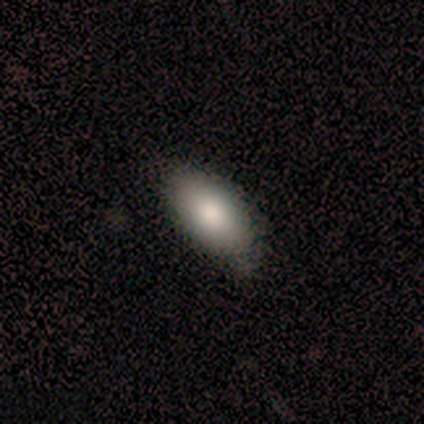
This appears to be a smooth galaxy with no disk features (88%) that is in between round and cigar-shaped (93%). Merging: none (71%).